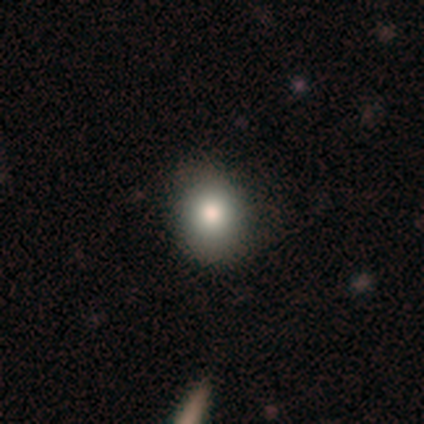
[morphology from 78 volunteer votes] Volunteers were most divided on "how rounded": round: 71%, in between: 29%, cigar-shaped: 0%. Remaining: smooth or featured — smooth (88%); merging — none (49%).